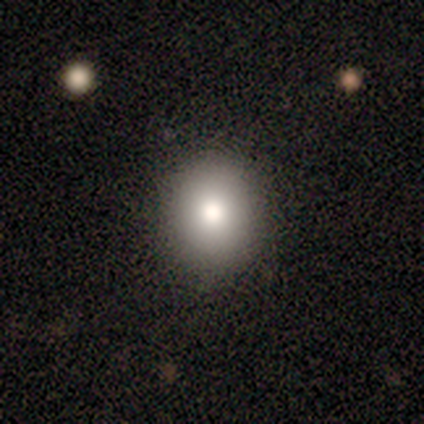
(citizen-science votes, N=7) Overall: smooth (86%). How rounded: round (83%). Merging: none (100%).